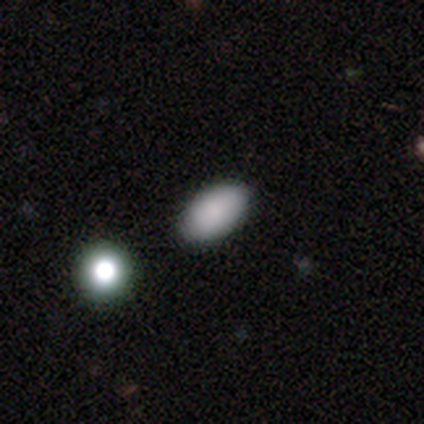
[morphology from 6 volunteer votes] Smooth or featured? smooth (67%)
How rounded? in between (100%)
Merging? none (100%)